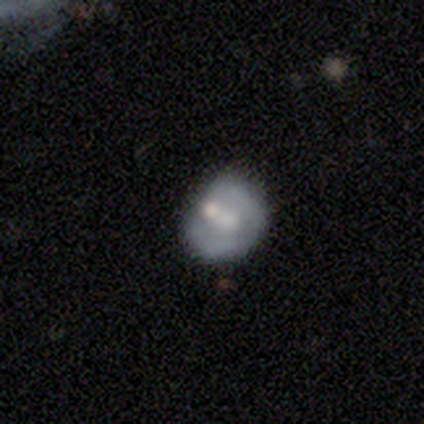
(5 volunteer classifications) This appears to be a featured or disk galaxy (60%) with no bar (100%), no spiral arms (100%) and a large central bulge (67%). Merging: none (60%).